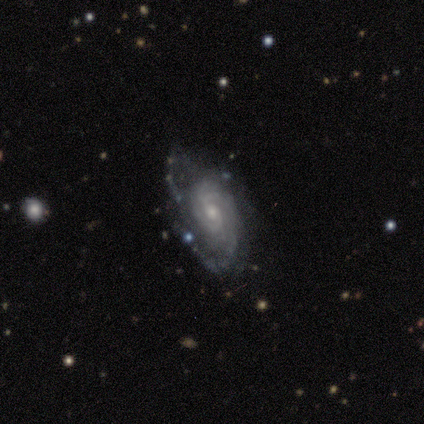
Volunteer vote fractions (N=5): Smooth or featured? featured or disk (100%)
Edge-on disk? no (100%)
Bar? weak (40%, tied with no)
Spiral arms? yes (100%)
Spiral winding? tight (80%)
Spiral arm count? 2 (80%)
Bulge size? small (60%)
Merging? minor disturbance (40%, tied with major disturbance)